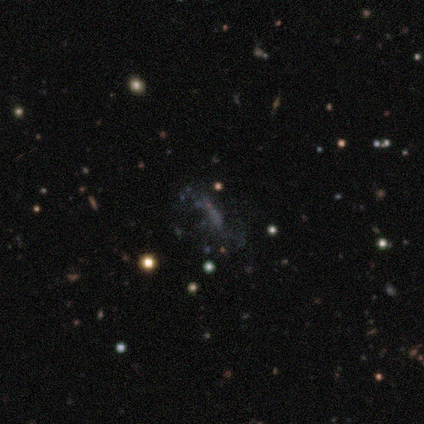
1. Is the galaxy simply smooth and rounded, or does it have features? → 40% smooth (tied), 40% star or artifact (tied), 20% featured or disk.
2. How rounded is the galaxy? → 100% in between, 0% round, 0% cigar-shaped.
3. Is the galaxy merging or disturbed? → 33% none (tied), 33% minor disturbance (tied), 33% major disturbance (tied), 0% merger.